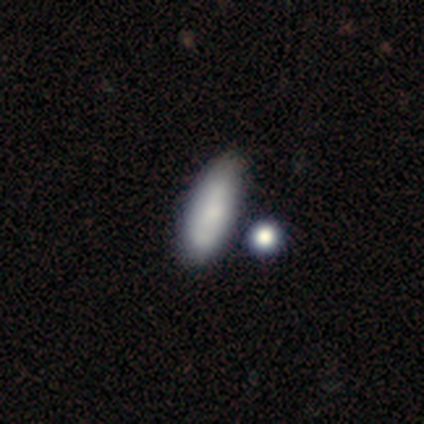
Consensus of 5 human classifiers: Smooth or featured? smooth (60%)
How rounded? in between (67%)
Merging? none (100%)